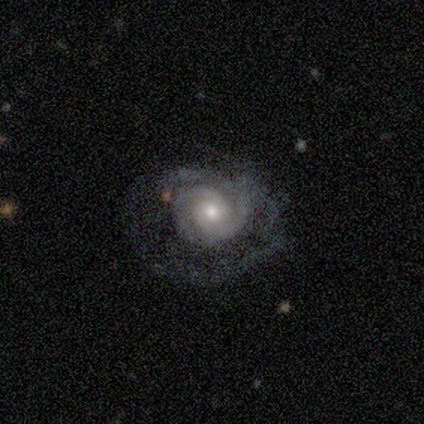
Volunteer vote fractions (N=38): Q: Smooth or featured?
A: featured or disk (97%); runner-up: smooth (3%)
Q: Edge-on disk?
A: no (100%)
Q: Bar?
A: no (81%); runner-up: weak (19%)
Q: Spiral arms?
A: yes (92%); runner-up: no (8%)
Q: Spiral winding?
A: tight (68%); runner-up: medium (24%)
Q: Spiral arm count?
A: 2 (82%); runner-up: 1 (6%)
Q: Bulge size?
A: moderate (51%); runner-up: small (43%)
Q: Merging?
A: none (47%); runner-up: major disturbance (32%)